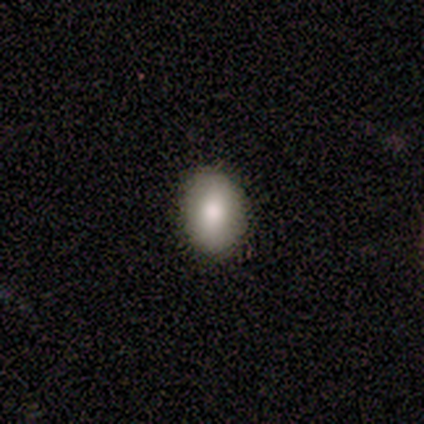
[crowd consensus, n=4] Smooth or featured?
  - smooth: 100% *
  - featured or disk: 0%
  - star or artifact: 0%
How rounded?
  - in between: 100% *
  - round: 0%
  - cigar-shaped: 0%
Merging?
  - none: 75% *
  - minor disturbance: 25%
  - major disturbance: 0%
  - merger: 0%